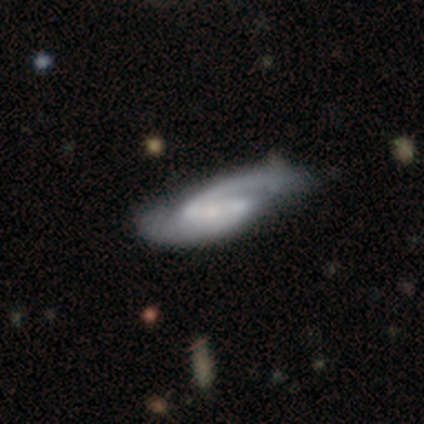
Smooth or featured? featured or disk (77%)
Edge-on disk? no (83%)
Bar? strong (42%, tied with weak)
Spiral arms? yes (100%)
Spiral winding? medium (53%)
Spiral arm count? 2 (79%)
Bulge size? small (58%)
Merging? none (54%)